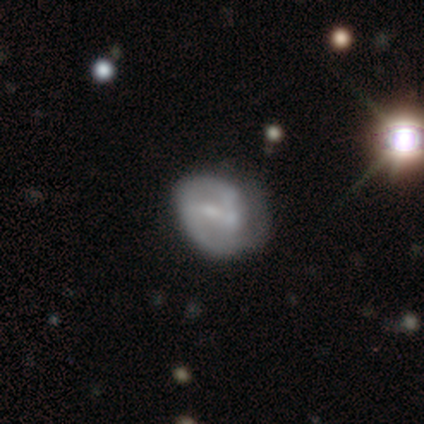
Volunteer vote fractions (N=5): smooth-or-featured: featured or disk: 80% | smooth: 20% | star or artifact: 0%
  disk-edge-on: no: 100% | yes: 0%
    bar: strong: 50% | weak: 25% | no: 25%
    has-spiral-arms: yes: 50% (tied) | no: 50% (tied)
      spiral-winding: medium: 100% | tight: 0% | loose: 0%
      spiral-arm-count: 1: 50% (tied) | 2: 50% (tied) | 3: 0% | 4: 0% | more than 4: 0% | can't tell: 0%
    bulge-size: small: 50% | moderate: 25% | none: 25% | dominant: 0% | large: 0%
  merging: minor disturbance: 60% | none: 40% | major disturbance: 0% | merger: 0%